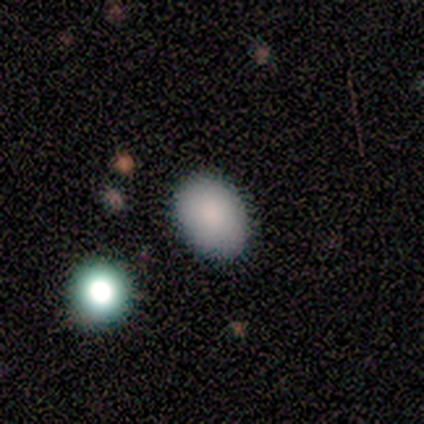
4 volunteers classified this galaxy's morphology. smooth 75%, star or artifact 25%, featured or disk 0%. Down the decision tree: how rounded — in between (100%); merging — none (100%).